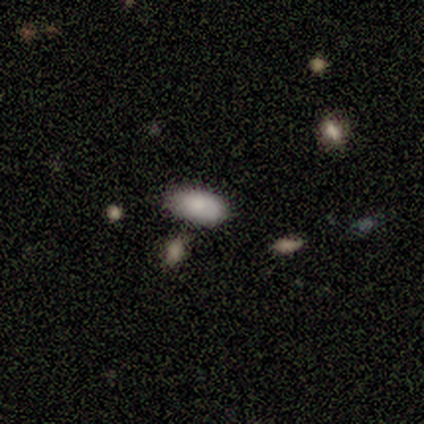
smooth 80%, star or artifact 20%, featured or disk 0%. Down the decision tree: how rounded — in between (100%); merging — none (50%).